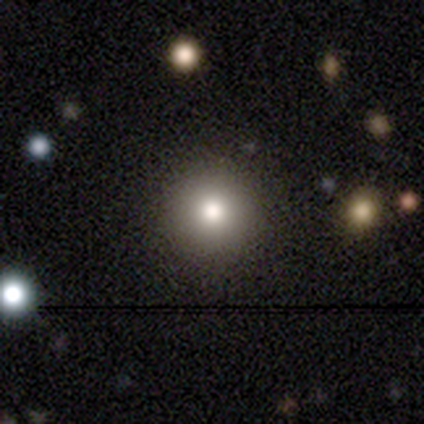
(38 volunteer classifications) Q: Smooth or featured?
A: smooth (84%); runner-up: featured or disk (8%)
Q: How rounded?
A: round (91%); runner-up: in between (9%)
Q: Merging?
A: none (89%); runner-up: minor disturbance (6%)